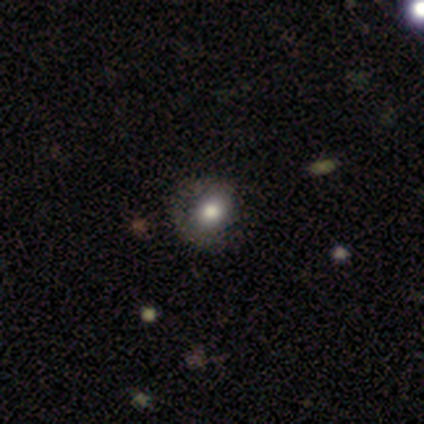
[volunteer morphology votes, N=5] A smooth galaxy with no disk features (60%) that is in between round and cigar-shaped (67%). Merging: none (75%).